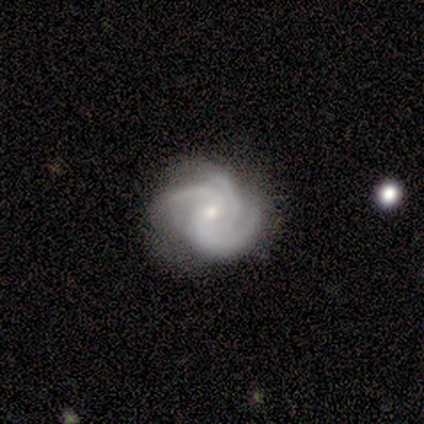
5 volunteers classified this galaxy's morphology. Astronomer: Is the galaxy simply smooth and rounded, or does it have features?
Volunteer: featured or disk — 100%.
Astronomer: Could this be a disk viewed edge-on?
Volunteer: no — 100%.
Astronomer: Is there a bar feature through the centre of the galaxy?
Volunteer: no — 100%.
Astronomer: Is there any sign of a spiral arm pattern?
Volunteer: yes — 100%.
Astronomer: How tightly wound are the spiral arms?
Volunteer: tight — 60% (runner-up: medium, 40%).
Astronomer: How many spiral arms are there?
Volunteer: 3 — 100%.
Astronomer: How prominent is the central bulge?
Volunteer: small — 80%.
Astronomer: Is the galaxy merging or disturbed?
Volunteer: none — 80%.